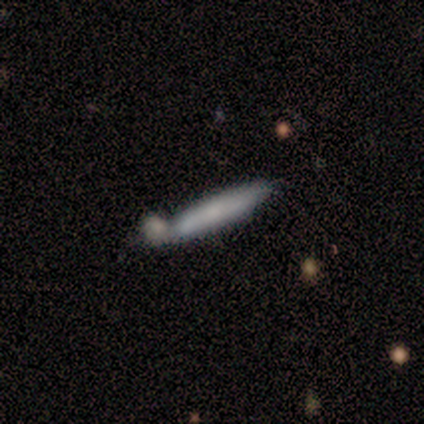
smooth_or_featured: smooth (p=0.60) [alt: featured or disk p=0.40]
how_rounded: cigar-shaped (p=0.67) [alt: in between p=0.33]
merging: none (p=0.80) [alt: merger p=0.20]